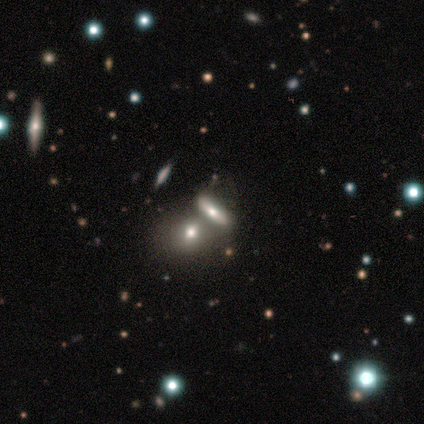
smooth 60%, featured or disk 30%, star or artifact 10%. Down the decision tree: how rounded — in between (67%); merging — merger (67%).